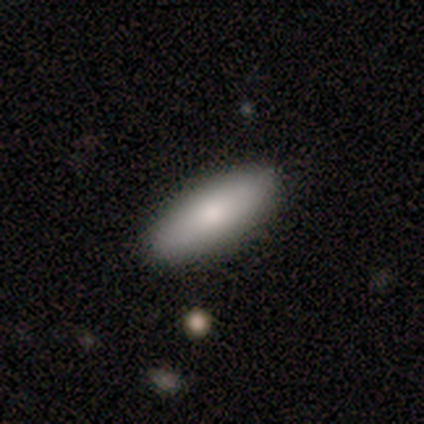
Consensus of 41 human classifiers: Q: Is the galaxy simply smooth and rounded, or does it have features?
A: smooth — 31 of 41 (76%).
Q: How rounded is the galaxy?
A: in between — 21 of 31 (68%).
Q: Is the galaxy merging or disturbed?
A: none — 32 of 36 (89%).